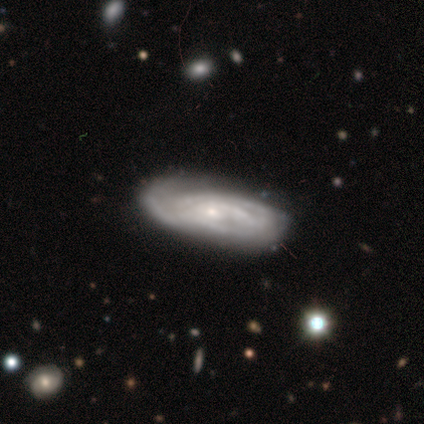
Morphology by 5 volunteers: Volunteers were most divided on "spiral winding" (2-way tie): tight: 50%, medium: 50%, loose: 0%. More confident: smooth or featured — featured or disk (100%); spiral arms — yes (100%); bulge size — small (100%); edge-on disk — no (80%); bar — no (75%); spiral arm count — can't tell (75%); merging — none (60%).